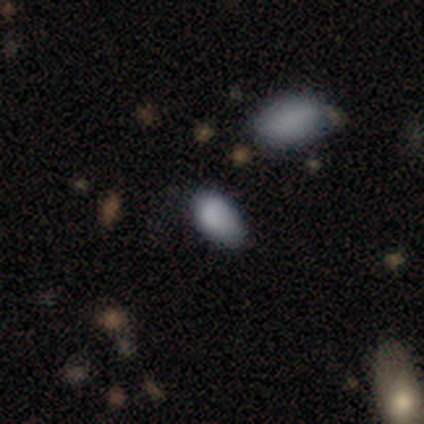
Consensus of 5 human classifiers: A smooth galaxy with no disk features (60%) that is in between round and cigar-shaped (100%). Merging: minor disturbance (50%).